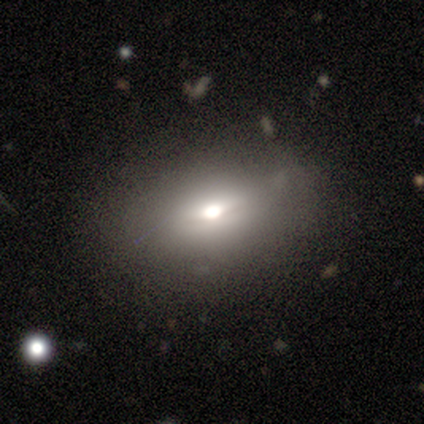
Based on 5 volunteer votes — Volunteers were most divided on "smooth or featured" (2-way tie): smooth: 40%, featured or disk: 40%, star or artifact: 20%. More confident: how rounded — in between (100%); merging — none (50%).